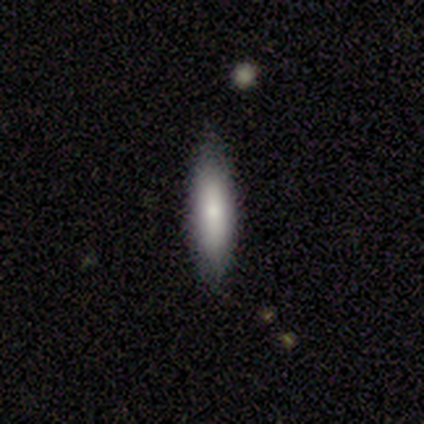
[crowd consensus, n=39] Overall: smooth (72%). How rounded: cigar-shaped (57%; in between 43%). Merging: none (59%).